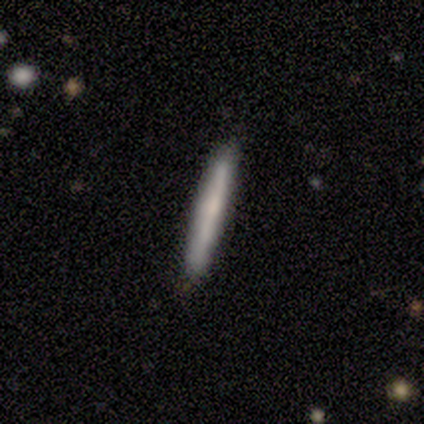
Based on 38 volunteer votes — A smooth galaxy with no disk features (58%) that is cigar-shaped (100%).

Vote fractions:
- Smooth or featured? smooth: 58% / featured or disk: 37% / star or artifact: 5%
- How rounded? cigar-shaped: 100% / round: 0% / in between: 0%
- Merging? none: 97% / minor disturbance: 3% / major disturbance: 0% / merger: 0%